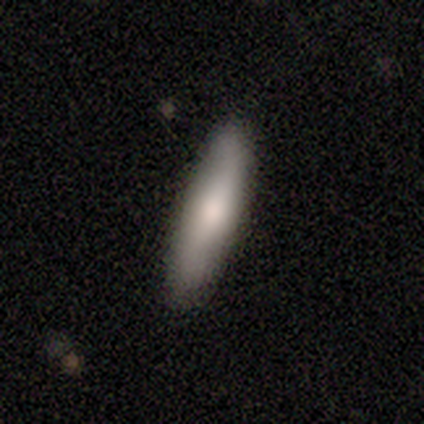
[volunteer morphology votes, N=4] Smooth or featured: smooth — 100%
How rounded: cigar-shaped — 100%
Merging: none — 100%